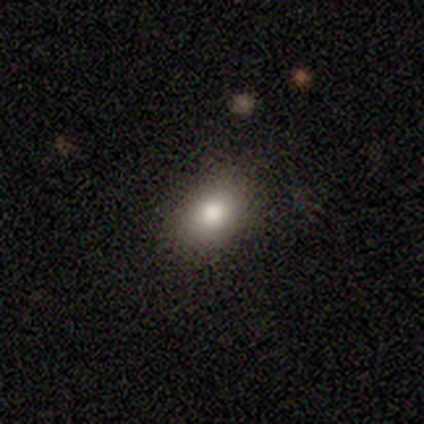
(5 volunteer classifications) Smooth or featured: smooth — 80% (star or artifact — 20%)
How rounded: in between — 100%
Merging: none — 75% (minor disturbance — 25%)